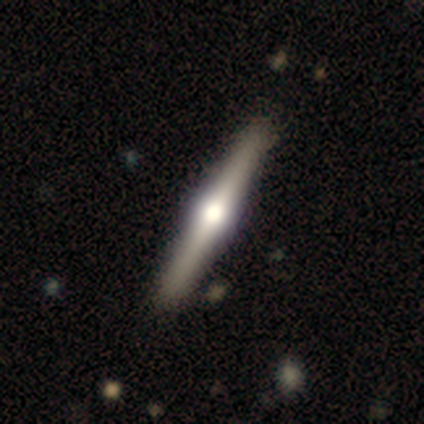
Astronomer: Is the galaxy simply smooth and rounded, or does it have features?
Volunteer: featured or disk — 100%.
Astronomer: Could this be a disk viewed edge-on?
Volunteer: yes — 100%.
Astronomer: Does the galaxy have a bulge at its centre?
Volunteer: rounded — 100%.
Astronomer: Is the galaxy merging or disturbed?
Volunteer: none — 100%.